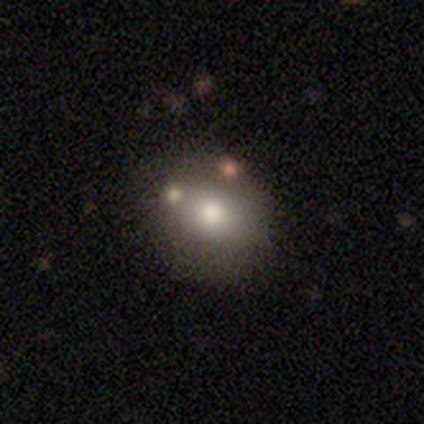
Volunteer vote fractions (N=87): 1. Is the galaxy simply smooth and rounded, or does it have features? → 67% smooth, 24% featured or disk, 9% star or artifact.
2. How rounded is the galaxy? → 64% round, 36% in between, 0% cigar-shaped.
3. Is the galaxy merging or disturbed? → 76% none, 13% minor disturbance, 9% merger, 3% major disturbance.